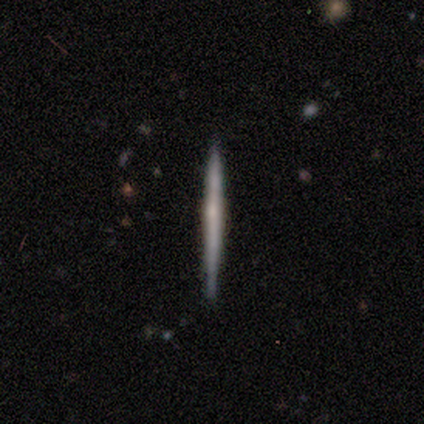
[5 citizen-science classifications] Smooth or featured? 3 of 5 (60%) said featured or disk. Edge-on disk? 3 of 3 (100%) said yes. Edge-on bulge? 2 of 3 (67%) said none. Merging? 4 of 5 (80%) said none.